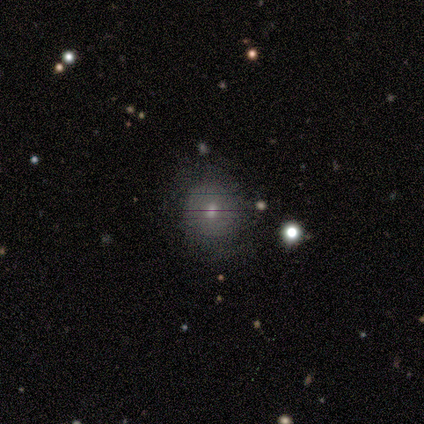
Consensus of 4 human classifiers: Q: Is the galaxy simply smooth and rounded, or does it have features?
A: featured or disk — 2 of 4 (50%).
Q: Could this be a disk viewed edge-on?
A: no — 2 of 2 (100%).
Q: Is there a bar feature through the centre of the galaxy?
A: no — 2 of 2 (100%).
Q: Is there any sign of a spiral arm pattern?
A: yes — 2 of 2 (100%).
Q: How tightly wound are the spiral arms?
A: tight — 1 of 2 (50%, tied with medium).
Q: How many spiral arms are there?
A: can't tell — 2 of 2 (100%).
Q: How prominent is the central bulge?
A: moderate — 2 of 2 (100%).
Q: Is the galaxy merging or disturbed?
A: none — 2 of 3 (67%).